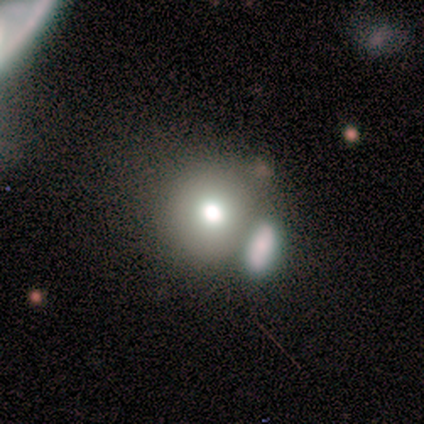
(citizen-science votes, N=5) This appears to be a smooth galaxy with no disk features (60%) that is round (33%, tied with in between and cigar-shaped). Merging: merger (50%).